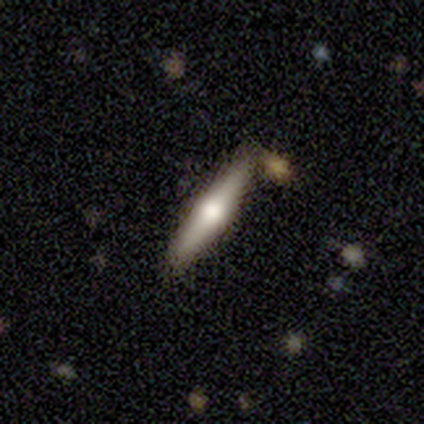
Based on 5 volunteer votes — Smooth or featured?
  - featured or disk: 100% *
  - smooth: 0%
  - star or artifact: 0%
Edge-on disk?
  - yes: 80% *
  - no: 20%
Edge-on bulge?
  - rounded: 100% *
  - boxy: 0%
  - none: 0%
Merging?
  - none: 100% *
  - minor disturbance: 0%
  - major disturbance: 0%
  - merger: 0%